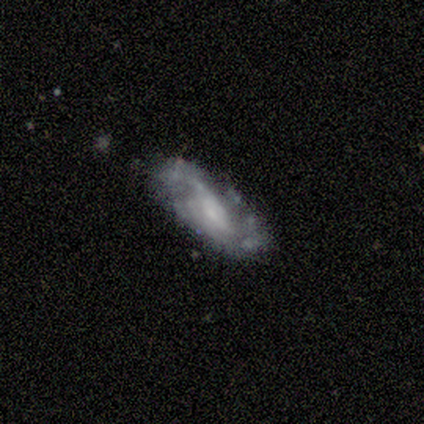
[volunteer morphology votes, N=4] Volunteers were most divided on "smooth or featured" (2-way tie): smooth: 50%, featured or disk: 50%, star or artifact: 0%. More confident: how rounded — in between (100%); merging — none (75%).